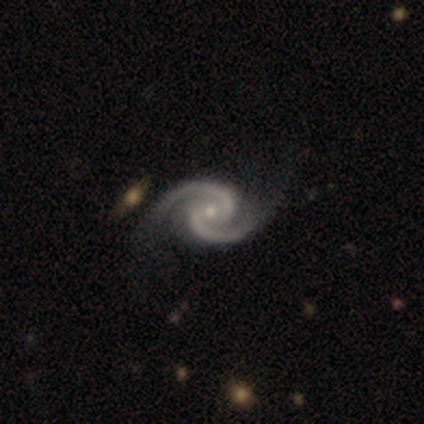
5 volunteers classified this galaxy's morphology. Overall: featured or disk (100%). Edge-on disk: no (100%). Bar: no (80%). Spiral arms: yes (100%). Spiral arm count: 2 (100%). Spiral winding: medium (60%; loose 40%). Bulge size: small (80%). Merging: none (80%).